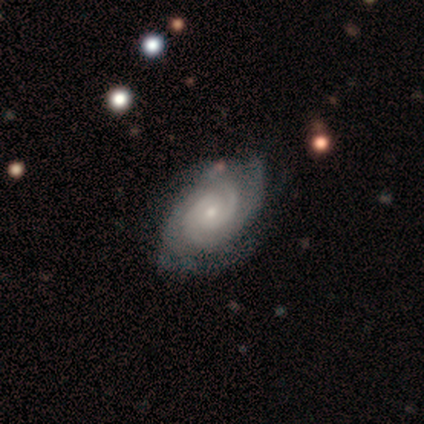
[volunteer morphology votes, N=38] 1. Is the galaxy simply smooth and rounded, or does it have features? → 84% featured or disk, 8% smooth, 8% star or artifact.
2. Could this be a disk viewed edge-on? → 94% no, 6% yes.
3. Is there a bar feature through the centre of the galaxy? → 60% no, 33% weak, 7% strong.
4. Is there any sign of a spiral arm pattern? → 93% yes, 7% no.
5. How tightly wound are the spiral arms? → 71% tight, 25% medium, 4% loose.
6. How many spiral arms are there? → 36% can't tell, 25% 2, 25% 3, 11% 4, 4% more than 4, 0% 1.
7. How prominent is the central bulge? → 73% small, 23% moderate, 3% large, 0% dominant, 0% none.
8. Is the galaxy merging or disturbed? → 60% none, 34% minor disturbance, 3% major disturbance, 3% merger.